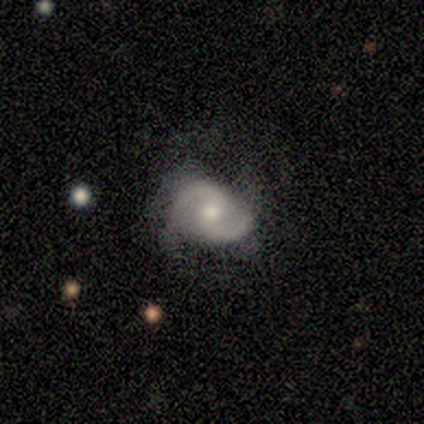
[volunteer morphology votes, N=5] Smooth or featured: featured or disk — 100%
Edge-on disk: no — 100%
Bar: weak — 60% (no — 40%)
Spiral arms: yes — 100%
Spiral winding: medium — 40% (tied with loose — 40%)
Spiral arm count: 2 — 100%
Bulge size: moderate — 100%
Merging: none — 40% (tied with minor disturbance — 40%)